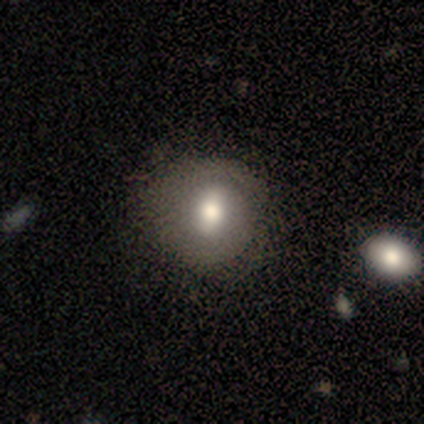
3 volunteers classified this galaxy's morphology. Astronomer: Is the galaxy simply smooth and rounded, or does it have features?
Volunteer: smooth — 100%.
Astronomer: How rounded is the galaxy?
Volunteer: round — 67%.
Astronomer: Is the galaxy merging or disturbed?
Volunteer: none — 67%.